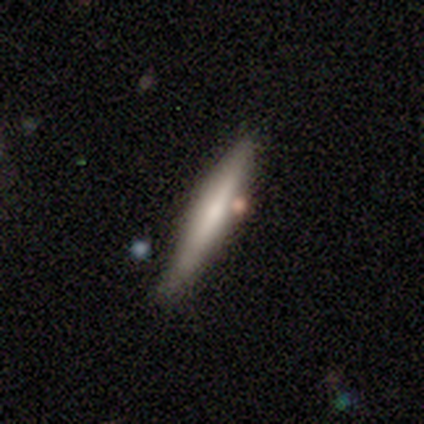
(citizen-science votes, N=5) Q: Smooth or featured?
A: smooth (80%); runner-up: featured or disk (20%)
Q: How rounded?
A: cigar-shaped (75%); runner-up: in between (25%)
Q: Merging?
A: none (60%); runner-up: minor disturbance (40%)